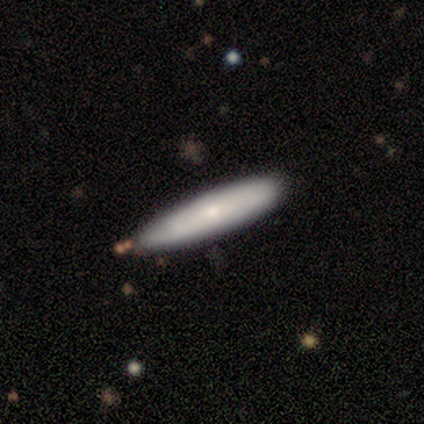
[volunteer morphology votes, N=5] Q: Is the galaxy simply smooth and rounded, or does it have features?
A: smooth — 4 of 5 (80%).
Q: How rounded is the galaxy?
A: cigar-shaped — 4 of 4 (100%).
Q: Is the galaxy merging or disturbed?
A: none — 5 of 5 (100%).